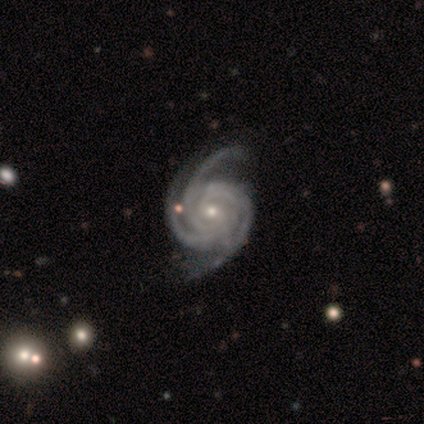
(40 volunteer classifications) This is clearly a featured or disk galaxy (100%). It is clearly not viewed edge-on (100%). Bar: likely no (65%). Spiral arm pattern: clearly yes (100%). Spiral arm count: clearly 3 (82%). Spiral winding: likely tight (65%). Central bulge: possibly small (55%). Merging: marginally none (38%).